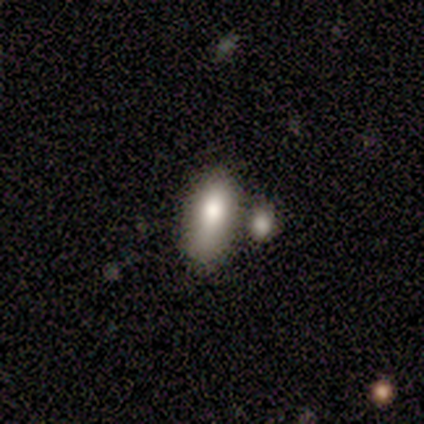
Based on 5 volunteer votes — Volunteers were most divided on "smooth or featured": smooth: 60%, featured or disk: 20%, star or artifact: 20%. More confident: how rounded — in between (100%); merging — none (75%).